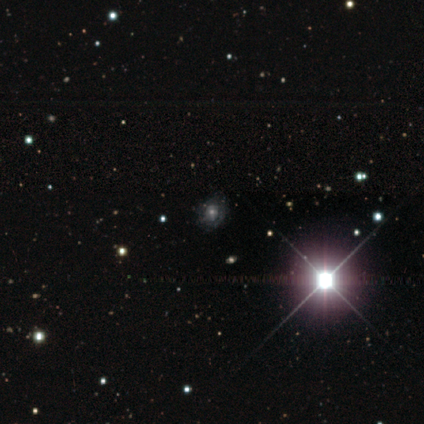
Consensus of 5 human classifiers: Q: Smooth or featured?
A: featured or disk (40%); tied with: star or artifact (40%)
Q: Edge-on disk?
A: no (100%)
Q: Bar?
A: no (100%)
Q: Spiral arms?
A: yes (50%); tied with: no (50%)
Q: Spiral winding?
A: tight (100%)
Q: Spiral arm count?
A: can't tell (100%)
Q: Bulge size?
A: large (50%); tied with: moderate (50%)
Q: Merging?
A: none (33%); tied with: minor disturbance (33%); major disturbance (33%)